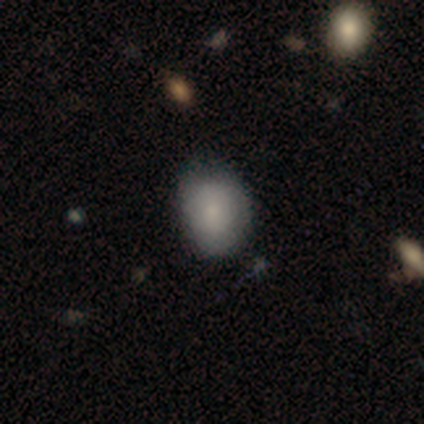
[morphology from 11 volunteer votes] A smooth galaxy with no disk features (91%) that is in between round and cigar-shaped (70%). Merging: none (60%).